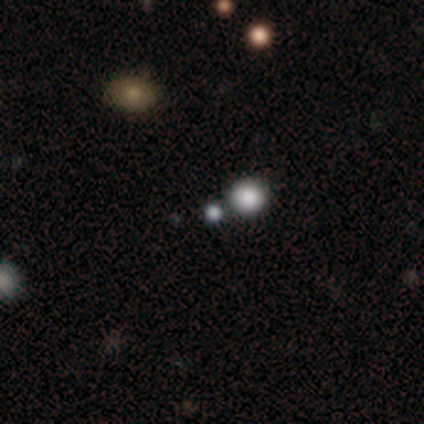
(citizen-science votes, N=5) smooth 80%, star or artifact 20%, featured or disk 0%. Down the decision tree: how rounded — round (100%); merging — none (50%).